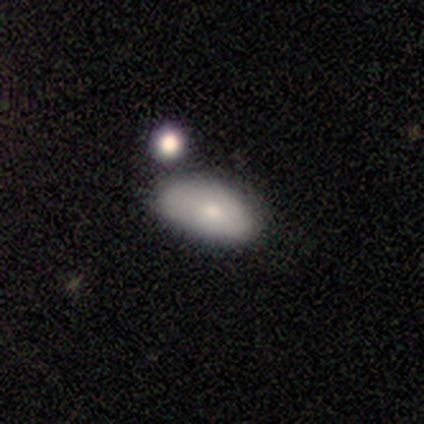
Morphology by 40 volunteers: smooth-or-featured: smooth: 62% | featured or disk: 22% | star or artifact: 15%
  how-rounded: in between: 100% | round: 0% | cigar-shaped: 0%
  merging: none: 38% | minor disturbance: 35% | merger: 18% | major disturbance: 9%